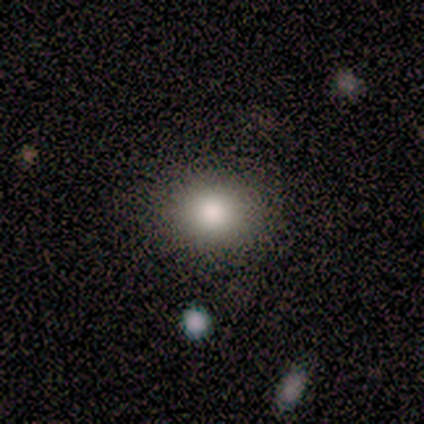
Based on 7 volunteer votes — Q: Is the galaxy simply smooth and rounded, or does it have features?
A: smooth — 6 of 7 (86%).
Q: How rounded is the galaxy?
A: round — 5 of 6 (83%).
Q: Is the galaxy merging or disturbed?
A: none — 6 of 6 (100%).